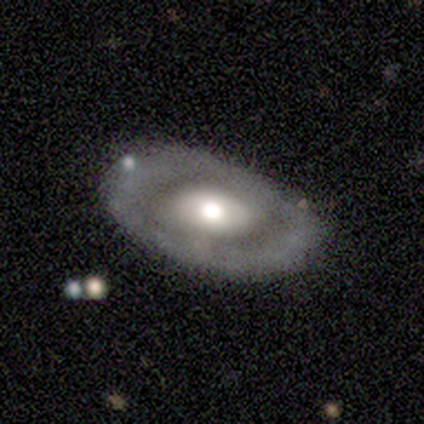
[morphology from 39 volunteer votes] This is likely a featured or disk galaxy (77%). It is clearly not viewed edge-on (100%). Bar: clearly no (87%). Spiral arm pattern: clearly no (80%). Central bulge: possibly moderate (53%). Merging: likely none (77%).